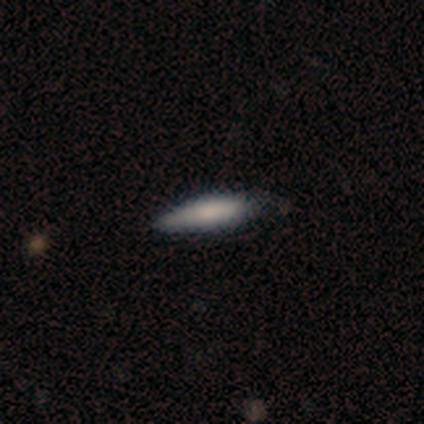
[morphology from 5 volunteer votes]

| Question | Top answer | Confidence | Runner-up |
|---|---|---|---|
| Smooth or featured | smooth | 60% | featured or disk (40%) |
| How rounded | cigar-shaped | 67% | in between (33%) |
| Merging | none | 80% | minor disturbance (20%) |